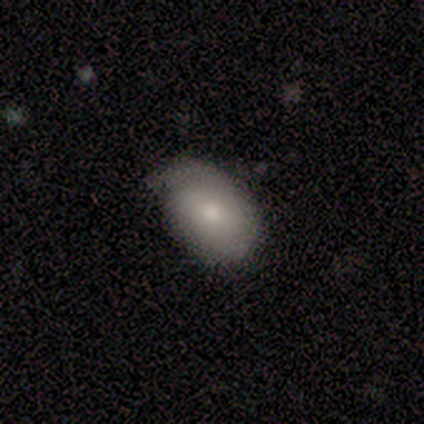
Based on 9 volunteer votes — A smooth galaxy with no disk features (67%) that is in between round and cigar-shaped (100%). Merging: none (62%).